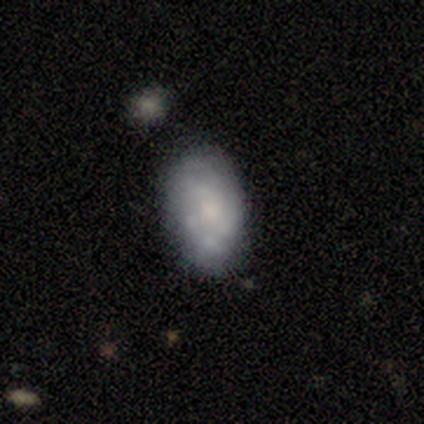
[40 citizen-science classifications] Overall: smooth (45%, tied with featured or disk). How rounded: in between (94%). Merging: none (64%; minor disturbance 25%).